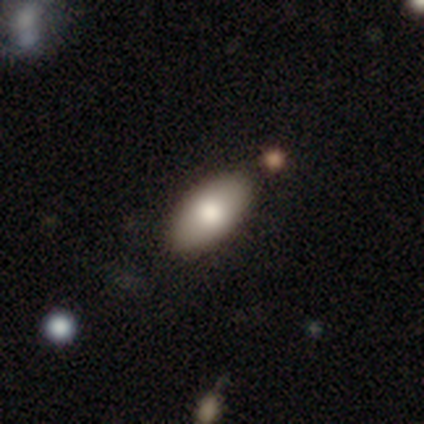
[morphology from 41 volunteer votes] type=smooth (61%); roundness=in between (88%); merging=none (83%).